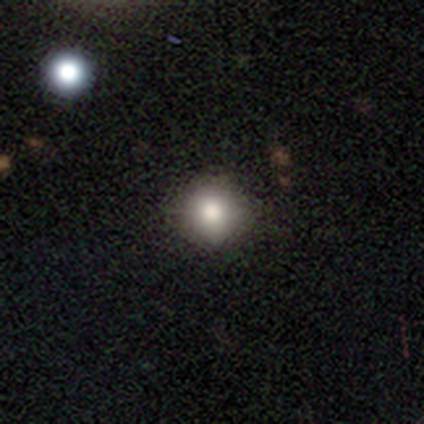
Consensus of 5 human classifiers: A smooth galaxy with no disk features (100%) that is round (100%).

Vote fractions:
- Smooth or featured? smooth: 100% / featured or disk: 0% / star or artifact: 0%
- How rounded? round: 100% / in between: 0% / cigar-shaped: 0%
- Merging? none: 100% / minor disturbance: 0% / major disturbance: 0% / merger: 0%